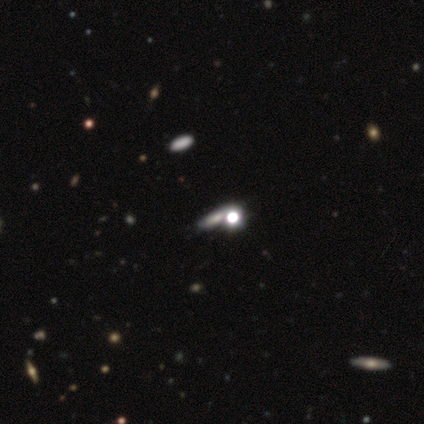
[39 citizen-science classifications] Volunteers were most divided on "smooth or featured": smooth: 44%, star or artifact: 36%, featured or disk: 21%. Remaining: merging — none (48%); how rounded — cigar-shaped (47%).